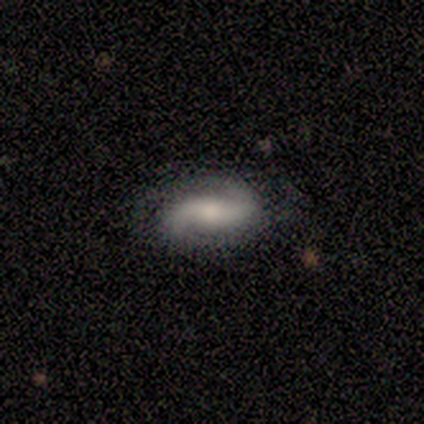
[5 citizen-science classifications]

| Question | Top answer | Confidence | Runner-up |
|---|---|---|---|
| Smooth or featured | featured or disk | 100% | — |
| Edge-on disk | no | 100% | — |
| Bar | no | 60% | strong (20%) |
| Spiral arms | yes | 100% | — |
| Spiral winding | loose | 60% | tight (20%) |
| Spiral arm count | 2 | 60% | 3 (20%) |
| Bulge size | large | 40% | tied: moderate (40%) |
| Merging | none | 100% | — |